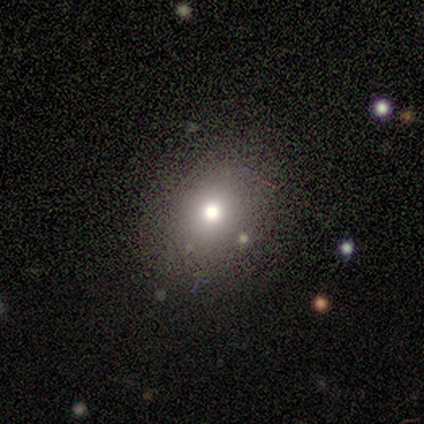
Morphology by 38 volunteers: Overall: smooth (68%). How rounded: round (65%; in between 35%). Merging: none (87%).